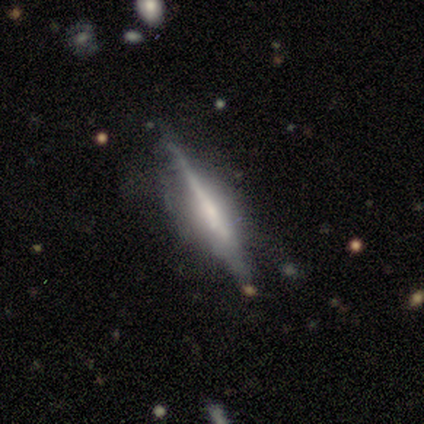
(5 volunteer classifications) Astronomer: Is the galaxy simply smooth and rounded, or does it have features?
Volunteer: featured or disk — 80%.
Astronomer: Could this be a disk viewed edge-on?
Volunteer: yes — 100%.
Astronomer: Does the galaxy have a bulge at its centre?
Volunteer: rounded — 50%.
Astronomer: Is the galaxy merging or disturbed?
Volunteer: none — 60%.